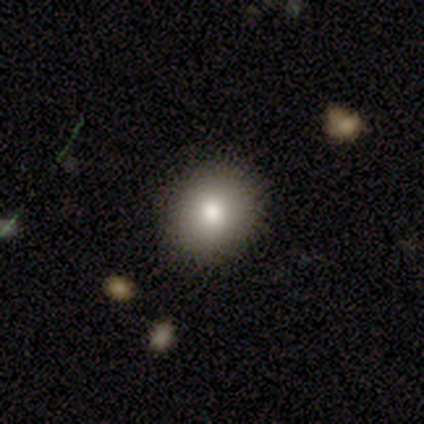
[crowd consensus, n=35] Smooth or featured? smooth (74%)
How rounded? round (65%)
Merging? none (97%)